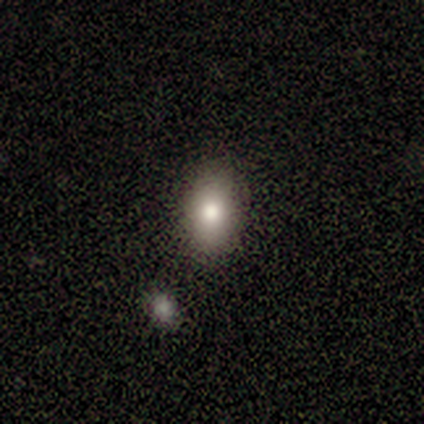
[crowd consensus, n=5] smooth_or_featured: smooth (p=0.60) [alt: star or artifact p=0.40]
how_rounded: in between (p=1.00)
merging: none (p=1.00)